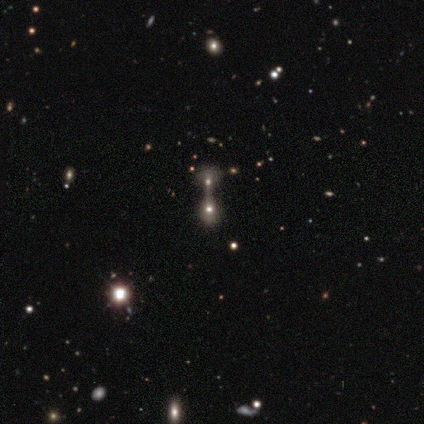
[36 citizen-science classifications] Morphology: type=smooth (56%); roundness=round (50%); merging=merger (68%).